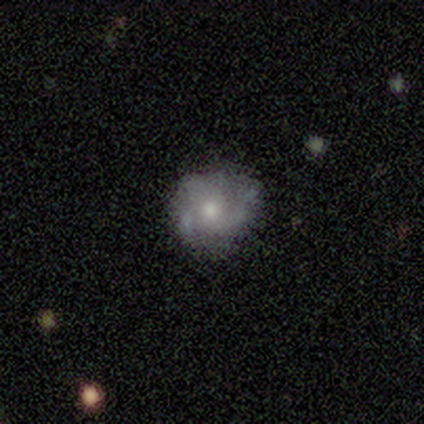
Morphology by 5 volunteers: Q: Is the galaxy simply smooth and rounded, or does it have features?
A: featured or disk — 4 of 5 (80%).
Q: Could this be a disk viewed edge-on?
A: no — 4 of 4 (100%).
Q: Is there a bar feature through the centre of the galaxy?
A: no — 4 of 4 (100%).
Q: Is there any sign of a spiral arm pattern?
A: yes — 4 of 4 (100%).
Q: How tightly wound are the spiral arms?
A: medium — 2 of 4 (50%, tied with loose).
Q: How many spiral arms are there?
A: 3 — 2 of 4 (50%).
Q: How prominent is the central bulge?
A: moderate — 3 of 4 (75%).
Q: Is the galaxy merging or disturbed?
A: none — 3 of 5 (60%).